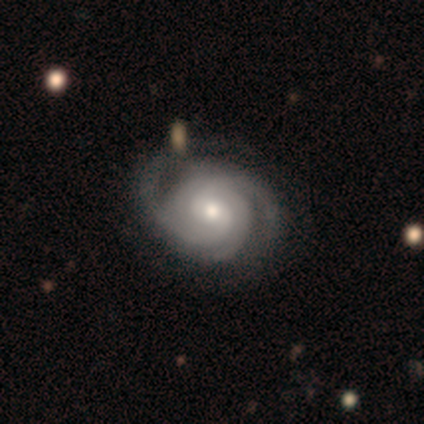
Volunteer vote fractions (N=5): Volunteers were most divided on "spiral winding": tight: 60%, medium: 40%, loose: 0%. More confident: smooth or featured — featured or disk (100%); edge-on disk — no (100%); spiral arms — yes (100%); bar — weak (80%); merging — none (80%); spiral arm count — 2 (60%); bulge size — small (60%).